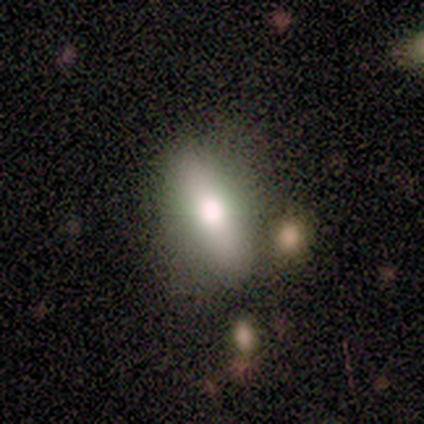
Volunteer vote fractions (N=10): A smooth galaxy with no disk features (50%) that is in between round and cigar-shaped (80%).

Vote fractions:
- Smooth or featured? smooth: 50% / featured or disk: 40% / star or artifact: 10%
- How rounded? in between: 80% / cigar-shaped: 20% / round: 0%
- Merging? none: 67% / minor disturbance: 22% / major disturbance: 11% / merger: 0%